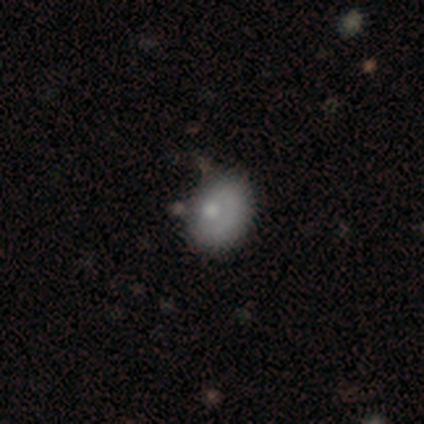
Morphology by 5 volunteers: Overall: featured or disk (60%; smooth 40%). Edge-on disk: no (100%). Bar: no (100%). Spiral arms: no (100%). Bulge size: moderate (100%). Merging: minor disturbance (60%; none 20%).